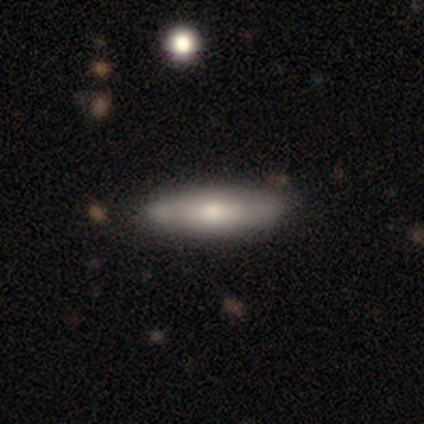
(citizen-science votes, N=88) smooth-or-featured: smooth: 59% | featured or disk: 35% | star or artifact: 6%
  how-rounded: cigar-shaped: 69% | in between: 29% | round: 2%
  merging: none: 81% | minor disturbance: 16% | merger: 4% | major disturbance: 0%